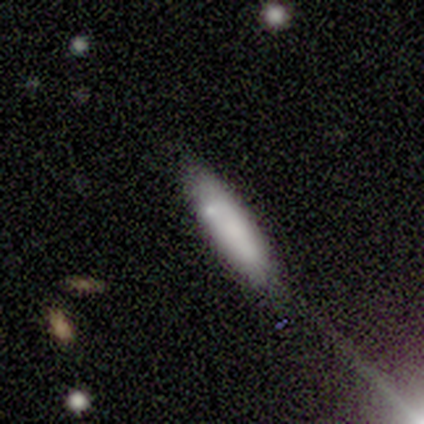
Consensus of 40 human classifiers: Morphology: type=smooth (75%); roundness=cigar-shaped (80%); merging=none (88%).